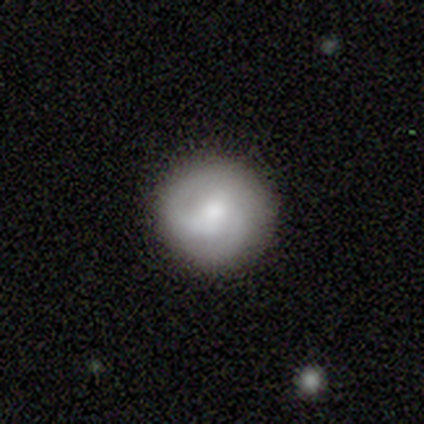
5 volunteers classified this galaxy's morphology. Smooth or featured? 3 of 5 (60%) said smooth. How rounded? 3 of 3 (100%) said round. Merging? 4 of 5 (80%) said none.